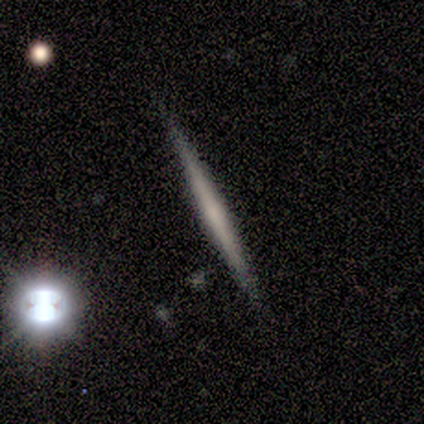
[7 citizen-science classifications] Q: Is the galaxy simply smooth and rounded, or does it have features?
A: featured or disk — 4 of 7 (57%).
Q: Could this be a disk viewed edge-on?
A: yes — 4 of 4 (100%).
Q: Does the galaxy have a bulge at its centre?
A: none — 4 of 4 (100%).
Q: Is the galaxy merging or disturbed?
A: none — 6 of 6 (100%).